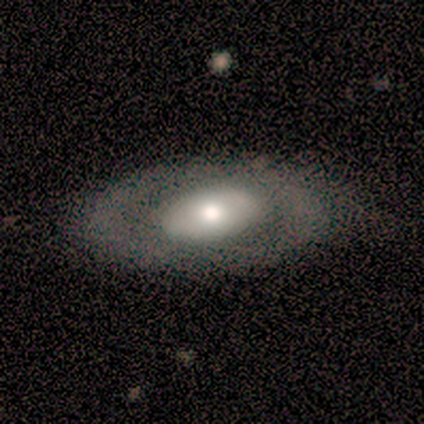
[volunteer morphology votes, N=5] Overall: smooth (60%; featured or disk 40%). How rounded: in between (100%). Merging: none (100%).